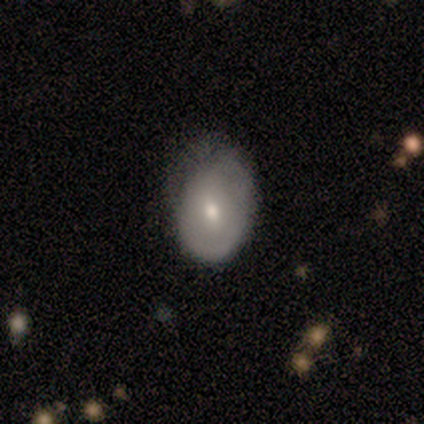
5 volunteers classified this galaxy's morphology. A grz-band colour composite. It shows a smooth galaxy with no disk features (40%, tied with featured or disk) that is in between round and cigar-shaped (100%). Merging: minor disturbance (75%).